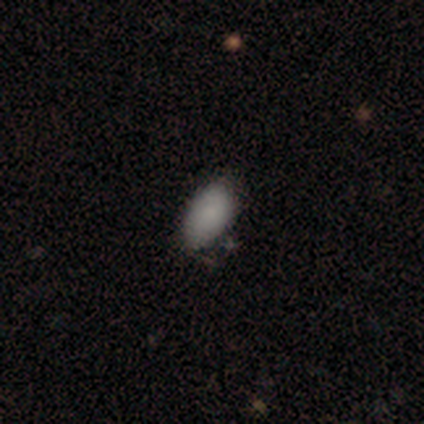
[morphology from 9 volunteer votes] Overall: smooth (89%). How rounded: in between (100%). Merging: none (88%).